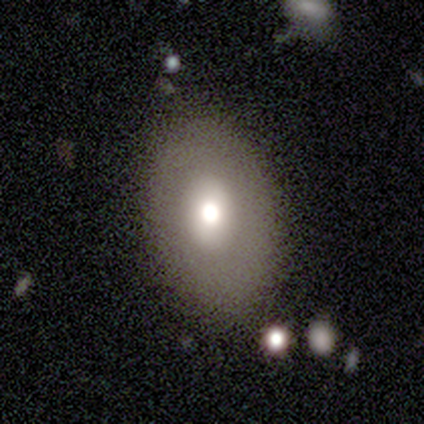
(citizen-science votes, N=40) Smooth or featured: smooth — 62% (featured or disk — 25%)
How rounded: in between — 84% (round — 16%)
Merging: none — 80% (minor disturbance — 17%)